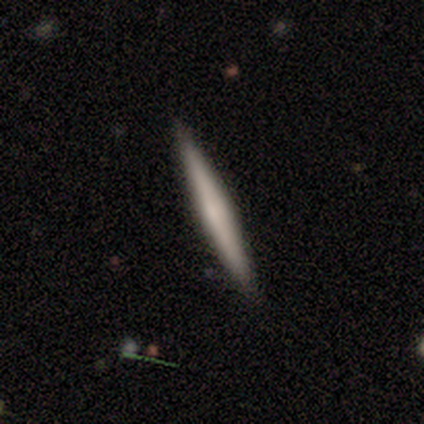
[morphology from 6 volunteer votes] Overall: featured or disk (50%; smooth 33%). Edge-on disk: yes (100%). Edge-on bulge: rounded (67%; none 33%). Merging: none (80%).